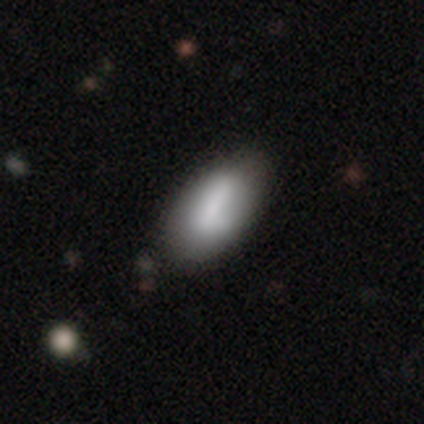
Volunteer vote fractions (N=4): Smooth or featured? smooth (75%)
How rounded? in between (100%)
Merging? none (75%)